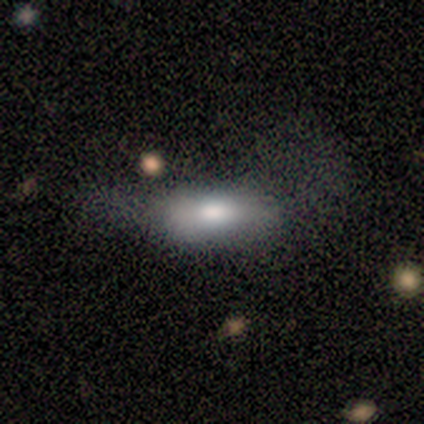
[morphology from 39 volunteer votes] type=smooth (85%); roundness=in between (73%); merging=none (30%, tied with major disturbance).